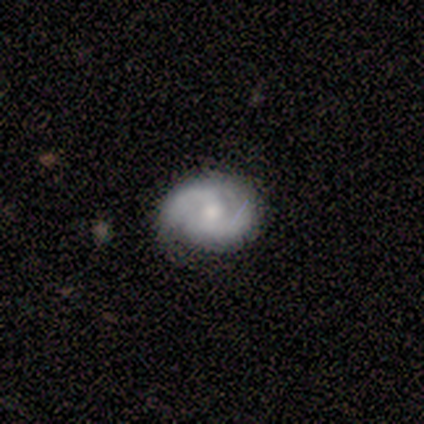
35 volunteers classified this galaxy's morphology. A featured or disk galaxy (66%) with no bar (68%), 2 (100%) tight (45%) spiral arms (91%) and a moderate central bulge (55%). Merging: none (72%).